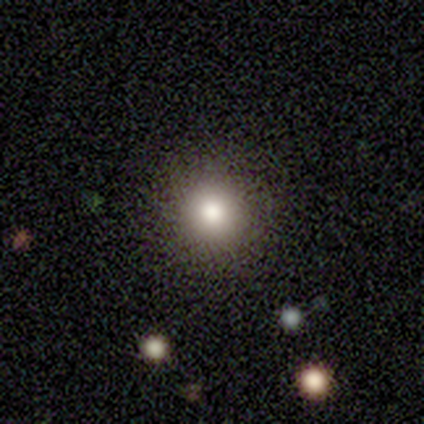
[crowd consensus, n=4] Q: Smooth or featured?
A: smooth (75%); runner-up: featured or disk (25%)
Q: How rounded?
A: round (100%)
Q: Merging?
A: none (100%)